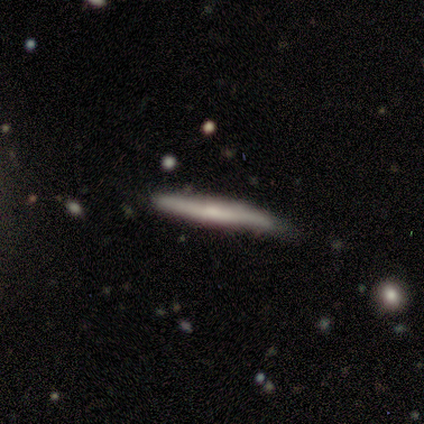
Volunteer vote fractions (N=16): A smooth galaxy with no disk features (62%) that is cigar-shaped (100%). Merging: none (62%).